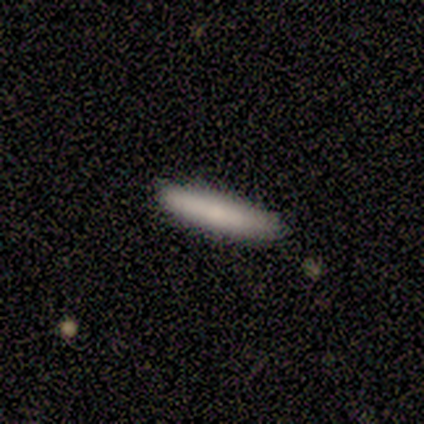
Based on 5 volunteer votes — Smooth or featured?
  - smooth: 60% *
  - featured or disk: 40%
  - star or artifact: 0%
How rounded?
  - cigar-shaped: 100% *
  - round: 0%
  - in between: 0%
Merging?
  - none: 80% *
  - minor disturbance: 20%
  - major disturbance: 0%
  - merger: 0%